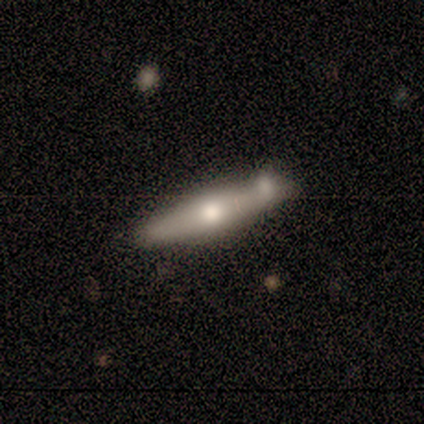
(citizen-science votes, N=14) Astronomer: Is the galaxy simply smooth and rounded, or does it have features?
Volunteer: smooth — 50%, tied with featured or disk at 50%.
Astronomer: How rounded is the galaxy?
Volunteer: cigar-shaped — 86%.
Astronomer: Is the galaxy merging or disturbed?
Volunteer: none — 71%.